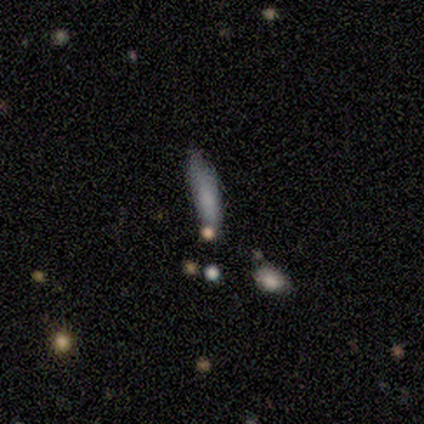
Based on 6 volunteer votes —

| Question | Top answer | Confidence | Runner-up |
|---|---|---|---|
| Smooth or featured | smooth | 100% | — |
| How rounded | in between | 67% | cigar-shaped (33%) |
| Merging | none | 50% | tied: minor disturbance (50%) |